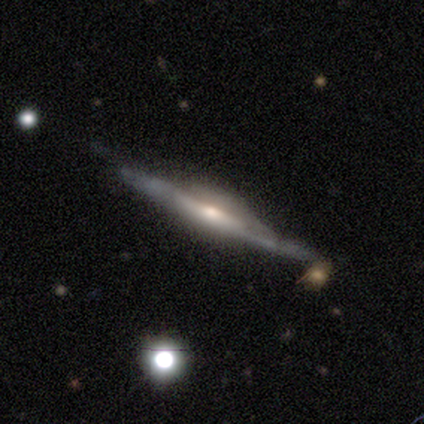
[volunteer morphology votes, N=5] type=featured or disk (100%); edge-on=yes (100%); edge-on bulge=rounded (80%); merging=none (100%).